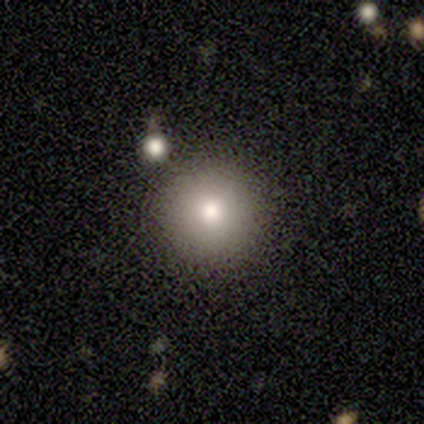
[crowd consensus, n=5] Smooth or featured? 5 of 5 (100%) said smooth. How rounded? 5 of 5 (100%) said round. Merging? 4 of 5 (80%) said none.